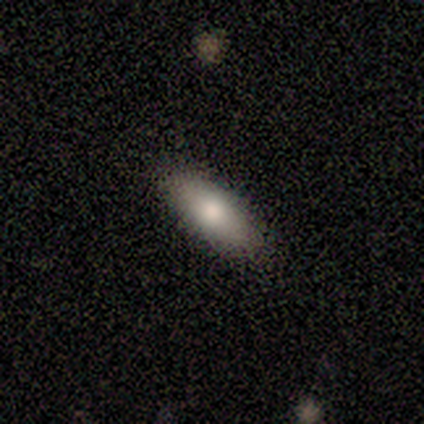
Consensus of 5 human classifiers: smooth-or-featured: smooth: 100% | featured or disk: 0% | star or artifact: 0%
  how-rounded: in between: 100% | round: 0% | cigar-shaped: 0%
  merging: none: 60% | minor disturbance: 20% | major disturbance: 20% | merger: 0%